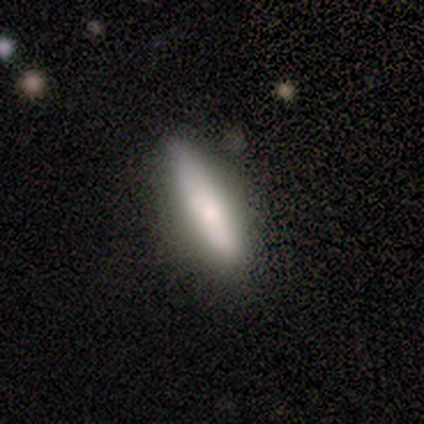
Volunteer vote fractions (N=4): Morphology: type=smooth (75%); roundness=cigar-shaped (100%); merging=none (50%, tied with minor disturbance).